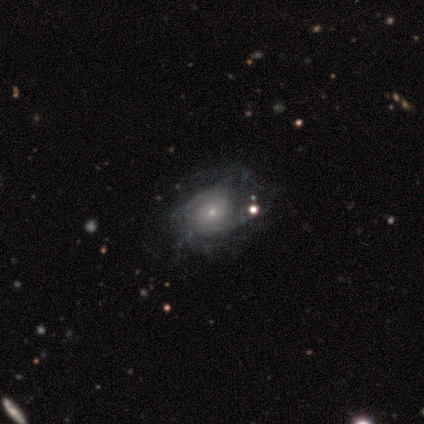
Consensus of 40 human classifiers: A featured or disk galaxy (88%) with no bar (85%), tight (48%, tied with medium) spiral arms (88%) and a small central bulge (58%).

Vote fractions:
- Smooth or featured? featured or disk: 88% / smooth: 12% / star or artifact: 0%
- Edge-on disk? no: 94% / yes: 6%
- Bar? no: 85% / weak: 15% / strong: 0%
- Spiral arms? yes: 88% / no: 12%
- Spiral winding? tight: 48% (tied) / medium: 48% (tied) / loose: 3%
- Spiral arm count? can't tell: 38% / 2: 28% / 3: 21% / more than 4: 7% / 1: 3% / 4: 3%
- Bulge size? small: 58% / moderate: 21% / none: 12% / large: 9% / dominant: 0%
- Merging? none: 42% / major disturbance: 18% / minor disturbance: 10% / merger: 5%